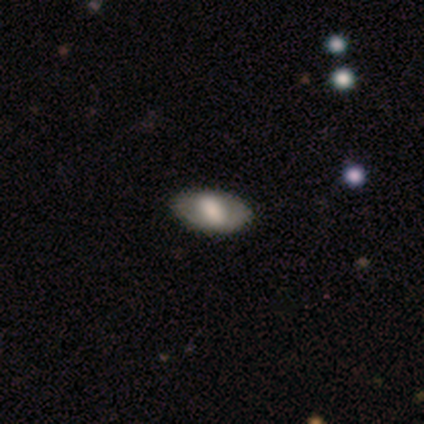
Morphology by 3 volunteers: Smooth or featured? featured or disk (67%)
Edge-on disk? no (100%)
Bar? strong (100%)
Spiral arms? no (100%)
Bulge size? large (50%, tied with small)
Merging? none (100%)